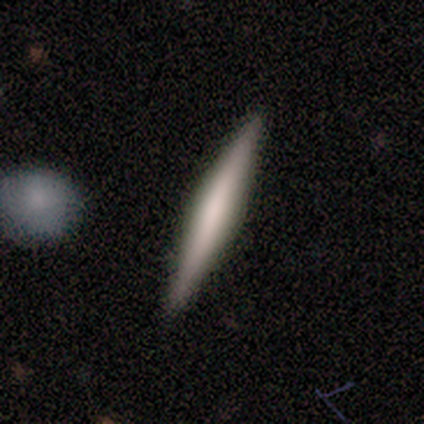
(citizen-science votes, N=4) A smooth galaxy with no disk features (50%, tied with featured or disk) that is cigar-shaped (100%). Merging: none (100%).